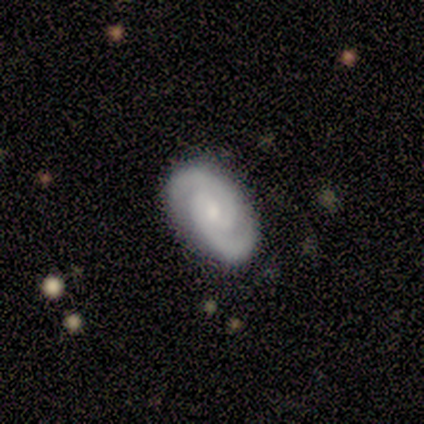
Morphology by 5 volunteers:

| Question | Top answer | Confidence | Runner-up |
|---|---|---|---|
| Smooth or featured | featured or disk | 80% | smooth (20%) |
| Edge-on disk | no | 100% | — |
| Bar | no | 50% | strong (25%) |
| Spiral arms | yes | 100% | — |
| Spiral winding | tight | 50% | medium (25%) |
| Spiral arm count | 2 | 75% | 1 (25%) |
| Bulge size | small | 50% | moderate (25%) |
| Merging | none | 80% | major disturbance (20%) |